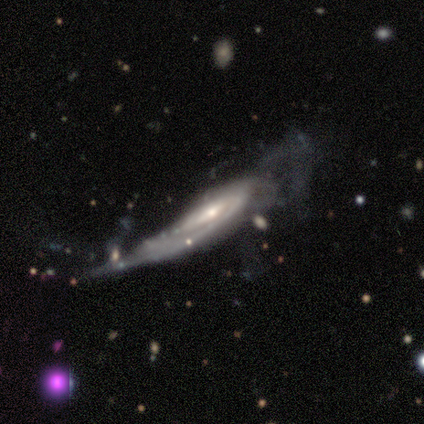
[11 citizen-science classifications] A featured or disk galaxy (82%) with a weak bar (71%), 1 (33%, tied with 2 and can't tell) medium (50%) spiral arms (86%) and a small central bulge (57%).

Vote fractions:
- Smooth or featured? featured or disk: 82% / smooth: 18% / star or artifact: 0%
- Edge-on disk? no: 78% / yes: 22%
- Bar? weak: 71% / strong: 14% / no: 14%
- Spiral arms? yes: 86% / no: 14%
- Spiral winding? medium: 50% / tight: 33% / loose: 17%
- Spiral arm count? 1: 33% (tied) / 2: 33% (tied) / can't tell: 33% (tied) / 3: 0% / 4: 0% / more than 4: 0%
- Bulge size? small: 57% / moderate: 29% / dominant: 14% / large: 0% / none: 0%
- Merging? major disturbance: 64% / minor disturbance: 18% / merger: 18% / none: 0%